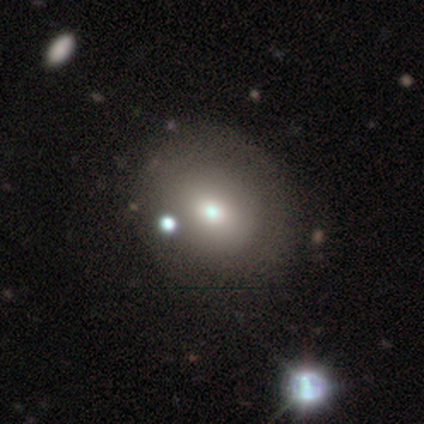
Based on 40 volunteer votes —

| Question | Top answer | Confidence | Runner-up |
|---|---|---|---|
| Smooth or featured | smooth | 72% | featured or disk (22%) |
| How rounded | round | 55% | in between (45%) |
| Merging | none | 58% | minor disturbance (11%) |